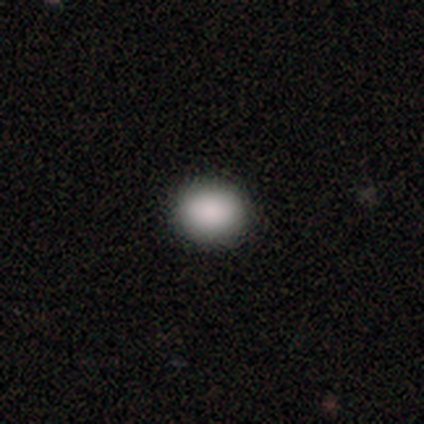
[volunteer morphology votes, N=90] smooth-or-featured: smooth: 87% | star or artifact: 9% | featured or disk: 4%
  how-rounded: round: 63% | in between: 37% | cigar-shaped: 0%
  merging: none: 93% | minor disturbance: 4% | major disturbance: 4% | merger: 0%